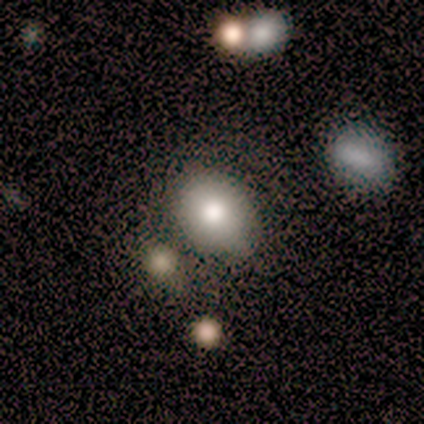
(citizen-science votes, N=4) Volunteers were most divided on "merging" (2-way tie): none: 50%, minor disturbance: 50%, major disturbance: 0%, merger: 0%. More confident: smooth or featured — smooth (75%); how rounded — in between (67%).